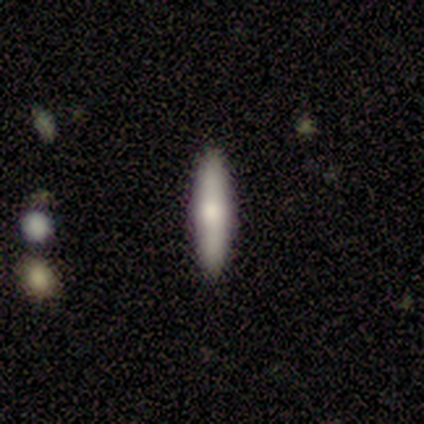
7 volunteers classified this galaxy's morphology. Smooth or featured: smooth — 57% (featured or disk — 43%)
How rounded: cigar-shaped — 75% (in between — 25%)
Merging: none — 100%